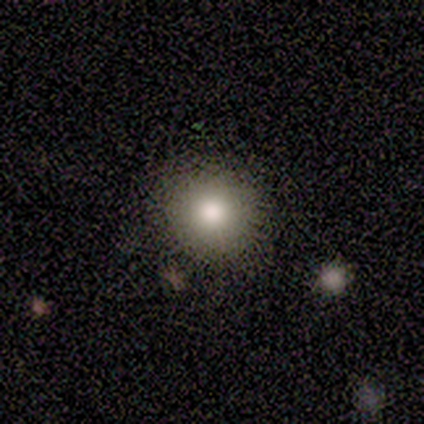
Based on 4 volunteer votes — This is clearly a smooth galaxy (100%). How rounded: clearly round (100%). Merging: clearly none (100%).